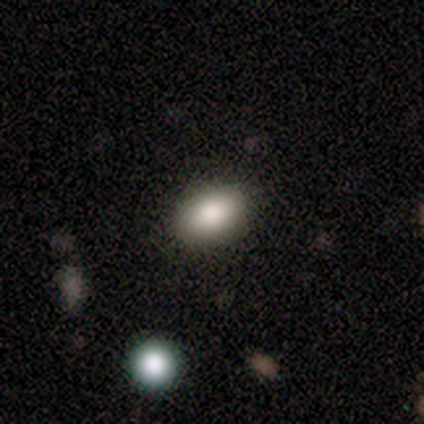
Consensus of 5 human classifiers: smooth_or_featured: smooth (p=0.80) [alt: featured or disk p=0.20]
how_rounded: in between (p=1.00)
merging: none (p=0.80) [alt: minor disturbance p=0.20]